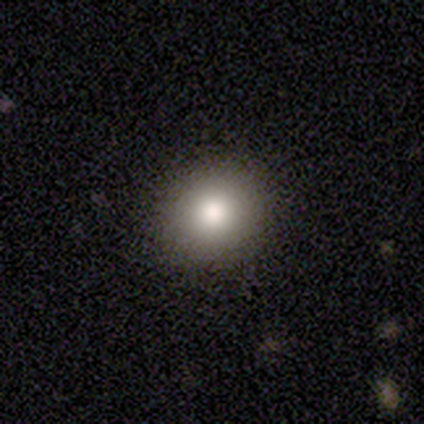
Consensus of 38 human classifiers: Q: Smooth or featured?
A: smooth (82%); runner-up: star or artifact (13%)
Q: How rounded?
A: round (84%); runner-up: in between (16%)
Q: Merging?
A: none (94%); runner-up: minor disturbance (6%)